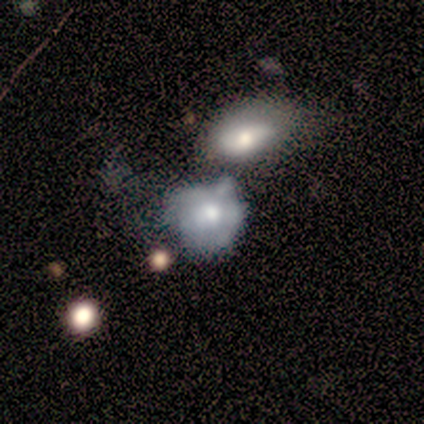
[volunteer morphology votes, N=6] type=featured or disk (50%); edge-on=no (100%); bar=no (100%); spiral arms=no (100%); bulge=moderate (67%); merging=major disturbance (40%, tied with merger).